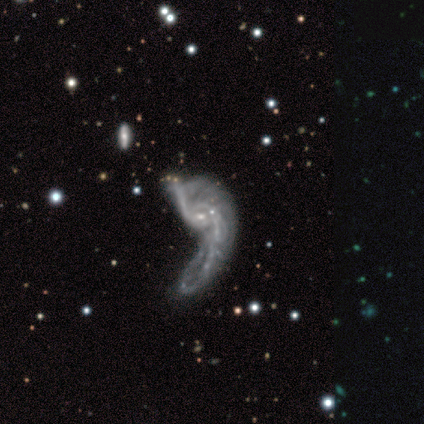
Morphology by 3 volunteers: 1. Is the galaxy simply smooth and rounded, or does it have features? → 67% star or artifact, 33% smooth, 0% featured or disk.